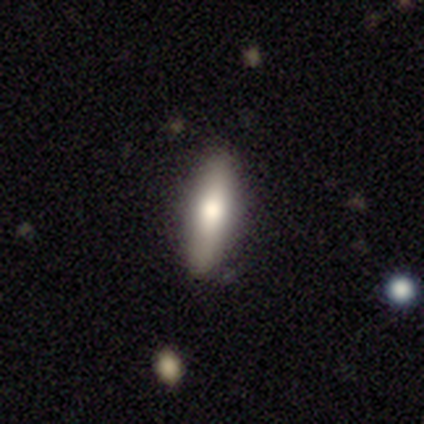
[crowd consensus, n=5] smooth_or_featured: smooth (p=0.60) [alt: featured or disk p=0.40]
how_rounded: in between (p=0.67) [alt: cigar-shaped p=0.33]
merging: none (p=0.80) [alt: minor disturbance p=0.20]